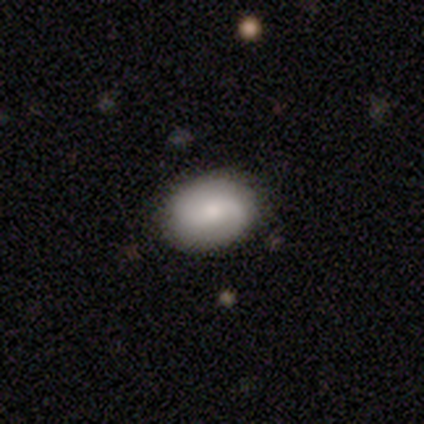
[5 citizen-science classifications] A smooth galaxy with no disk features (60%) that is round (67%).

Vote fractions:
- Smooth or featured? smooth: 60% / featured or disk: 40% / star or artifact: 0%
- How rounded? round: 67% / in between: 33% / cigar-shaped: 0%
- Merging? none: 100% / minor disturbance: 0% / major disturbance: 0% / merger: 0%